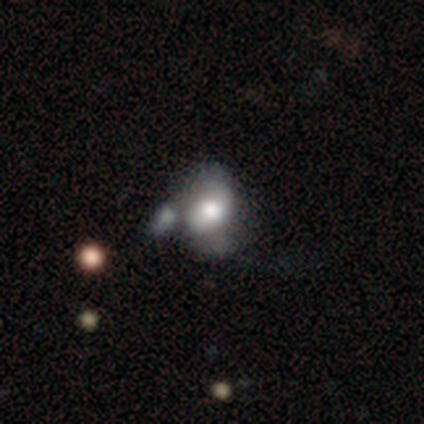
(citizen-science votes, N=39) Smooth or featured? smooth (62%)
How rounded? in between (79%)
Merging? merger (32%)